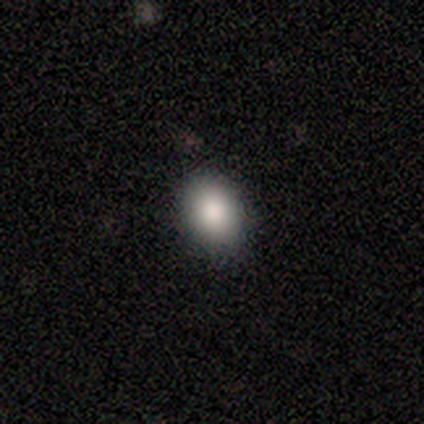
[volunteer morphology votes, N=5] smooth_or_featured: smooth (p=0.80) [alt: star or artifact p=0.20]
how_rounded: round (p=0.75) [alt: in between p=0.25]
merging: none (p=1.00)